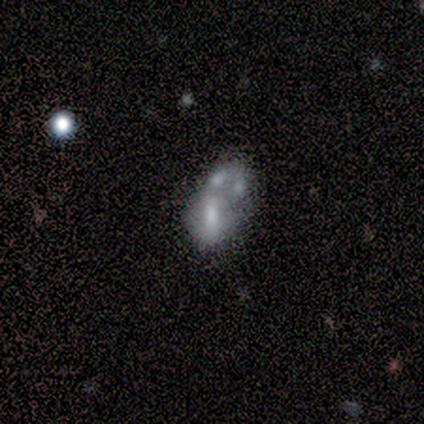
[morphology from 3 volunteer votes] smooth_or_featured: smooth (p=0.67) [alt: featured or disk p=0.33]
how_rounded: in between (p=1.00)
merging: merger (p=0.67) [alt: minor disturbance p=0.33]